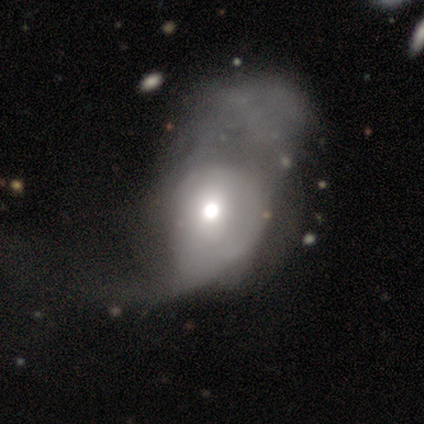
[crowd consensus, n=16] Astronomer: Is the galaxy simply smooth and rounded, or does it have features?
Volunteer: smooth — 50%, tied with featured or disk at 50%.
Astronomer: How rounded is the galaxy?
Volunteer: in between — 88%.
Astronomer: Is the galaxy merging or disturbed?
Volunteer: major disturbance — 81%.